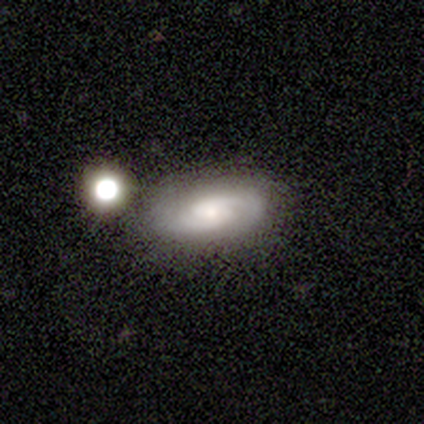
smooth-or-featured: featured or disk: 60% | smooth: 20% | star or artifact: 20%
  disk-edge-on: no: 67% | yes: 33%
    bar: weak: 100% | strong: 0% | no: 0%
    has-spiral-arms: yes: 100% | no: 0%
      spiral-winding: medium: 50% (tied) | loose: 50% (tied) | tight: 0%
      spiral-arm-count: 2: 100% | 1: 0% | 3: 0% | 4: 0% | more than 4: 0% | can't tell: 0%
    bulge-size: large: 50% (tied) | small: 50% (tied) | dominant: 0% | moderate: 0% | none: 0%
  merging: none: 50% (tied) | minor disturbance: 50% (tied) | major disturbance: 0% | merger: 0%